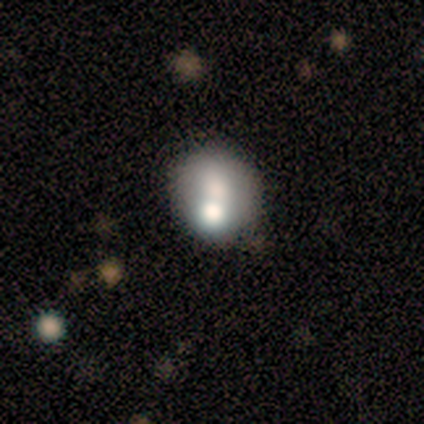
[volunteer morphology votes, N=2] A featured or disk galaxy (100%) with no bar (100%), no spiral arms (100%) and a large central bulge (50%, tied with moderate). Merging: minor disturbance (100%).